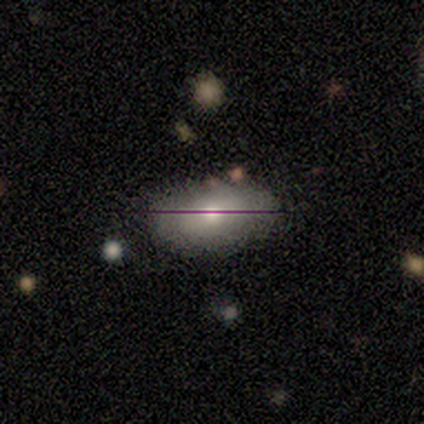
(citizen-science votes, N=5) Volunteers were most divided on "smooth or featured" (2-way tie): smooth: 40%, star or artifact: 40%, featured or disk: 20%. More confident: how rounded — in between (100%); merging — none (67%).